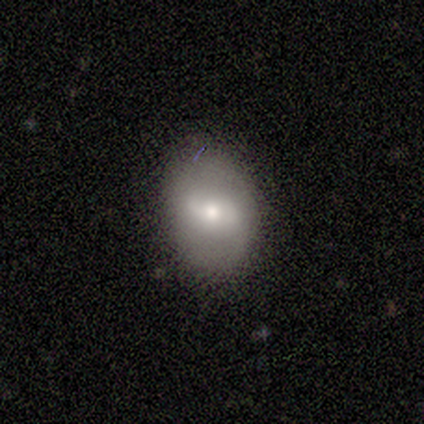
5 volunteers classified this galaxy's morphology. A smooth galaxy with no disk features (60%) that is round (67%).

Vote fractions:
- Smooth or featured? smooth: 60% / featured or disk: 40% / star or artifact: 0%
- How rounded? round: 67% / in between: 33% / cigar-shaped: 0%
- Merging? none: 80% / minor disturbance: 20% / major disturbance: 0% / merger: 0%